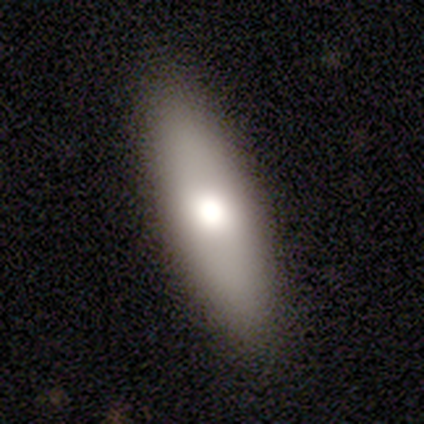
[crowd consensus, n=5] Morphology: type=smooth (60%); roundness=in between (67%); merging=none (100%).